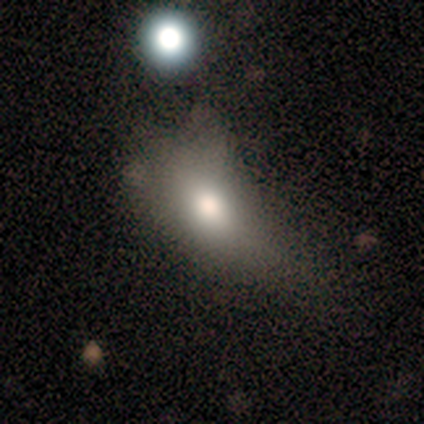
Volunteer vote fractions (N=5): A featured or disk galaxy (60%) with no bar (100%), no spiral arms (100%) and a dominant central bulge (50%, tied with small).

Vote fractions:
- Smooth or featured? featured or disk: 60% / smooth: 40% / star or artifact: 0%
- Edge-on disk? no: 67% / yes: 33%
- Bar? no: 100% / strong: 0% / weak: 0%
- Spiral arms? no: 100% / yes: 0%
- Bulge size? dominant: 50% (tied) / small: 50% (tied) / large: 0% / moderate: 0% / none: 0%
- Merging? major disturbance: 60% / minor disturbance: 40% / none: 0% / merger: 0%